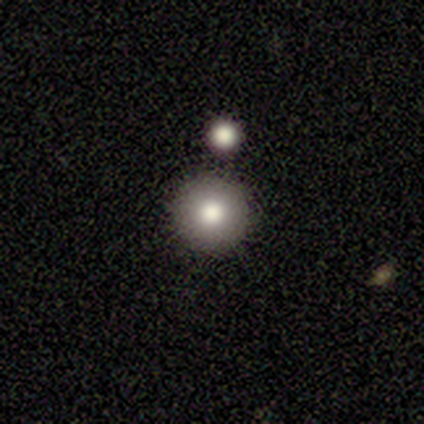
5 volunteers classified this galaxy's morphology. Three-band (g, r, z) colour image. It shows a smooth galaxy with no disk features (80%) that is round (100%). Merging: none (100%).